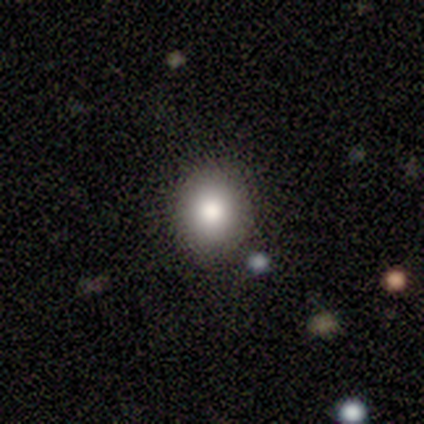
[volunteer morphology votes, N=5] This appears to be a smooth galaxy with no disk features (60%) that is round (100%). Merging: none (100%).